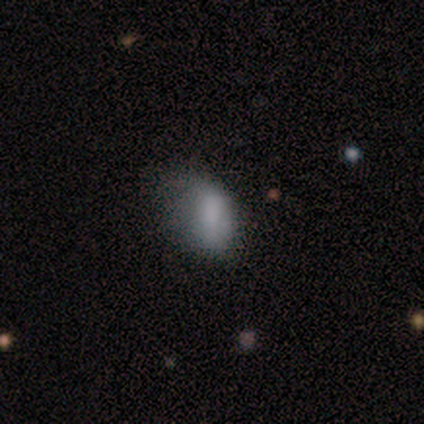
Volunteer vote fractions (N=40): Smooth or featured? 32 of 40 (80%) said smooth. How rounded? 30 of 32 (94%) said in between. Merging? 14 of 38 (37%) said minor disturbance.